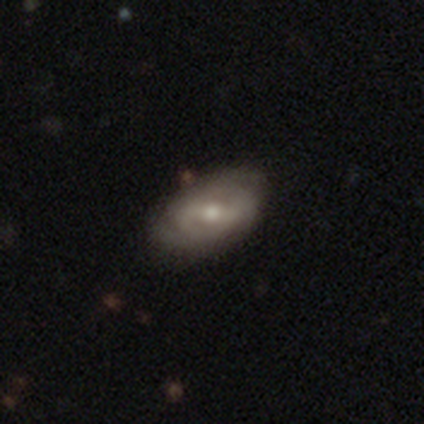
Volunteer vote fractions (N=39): Q: Smooth or featured?
A: featured or disk (82%); runner-up: smooth (13%)
Q: Edge-on disk?
A: no (97%); runner-up: yes (3%)
Q: Bar?
A: weak (55%); runner-up: no (29%)
Q: Spiral arms?
A: yes (90%); runner-up: no (10%)
Q: Spiral winding?
A: tight (46%); runner-up: medium (43%)
Q: Spiral arm count?
A: 2 (61%); runner-up: can't tell (29%)
Q: Bulge size?
A: moderate (52%); runner-up: small (35%)
Q: Merging?
A: none (76%); runner-up: minor disturbance (22%)